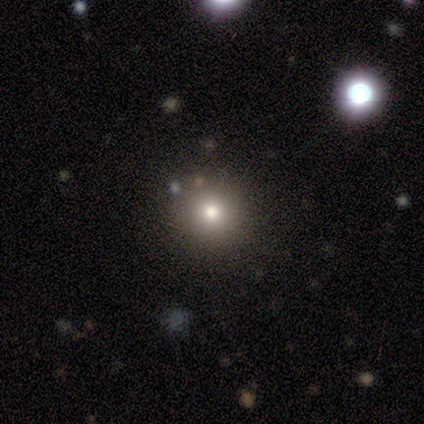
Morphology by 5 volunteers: smooth 60%, featured or disk 20%, star or artifact 20%. Down the decision tree: how rounded — round (100%); merging — none (75%).